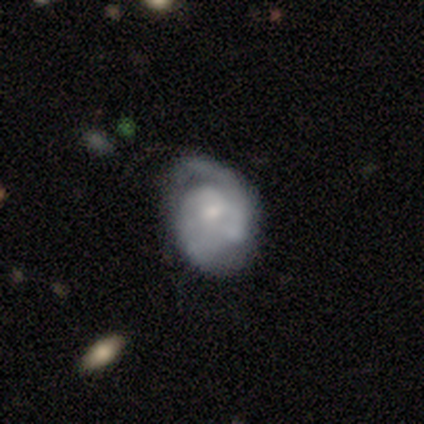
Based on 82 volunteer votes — Overall: featured or disk (73%). Edge-on disk: no (100%). Bar: no (77%). Spiral arms: yes (90%). Spiral arm count: 2 (37%; can't tell 31%). Spiral winding: tight (44%; medium 37%). Bulge size: small (63%; moderate 27%). Merging: none (40%; minor disturbance 33%).